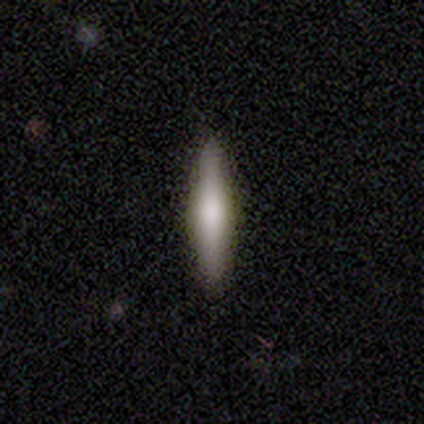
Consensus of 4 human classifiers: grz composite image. It shows a smooth galaxy with no disk features (50%, tied with featured or disk) that is cigar-shaped (100%). Merging: none (100%).